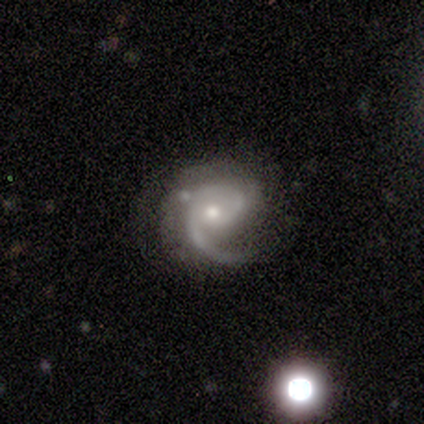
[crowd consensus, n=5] Smooth or featured?
  - featured or disk: 100% *
  - smooth: 0%
  - star or artifact: 0%
Edge-on disk?
  - no: 100% *
  - yes: 0%
Bar?
  - no: 100% *
  - strong: 0%
  - weak: 0%
Spiral arms?
  - yes: 100% *
  - no: 0%
Spiral winding?
  - medium: 60% *
  - tight: 20%
  - loose: 20%
Spiral arm count?
  - 1: 60% *
  - 2: 20%
  - 3: 20%
  - 4: 0%
  - more than 4: 0%
  - can't tell: 0%
Bulge size?
  - moderate: 80% *
  - small: 20%
  - dominant: 0%
  - large: 0%
  - none: 0%
Merging?
  - none: 80% *
  - major disturbance: 20%
  - minor disturbance: 0%
  - merger: 0%